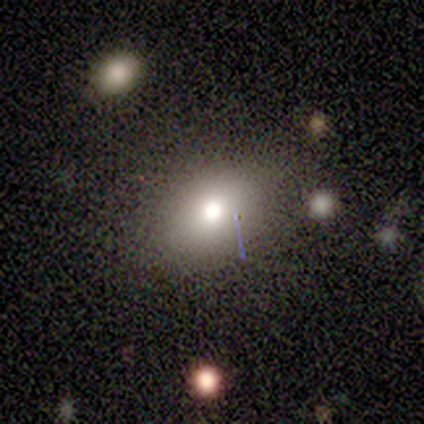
Smooth or featured: smooth — 60% (featured or disk — 20%)
How rounded: round — 67% (in between — 33%)
Merging: none — 75% (major disturbance — 25%)